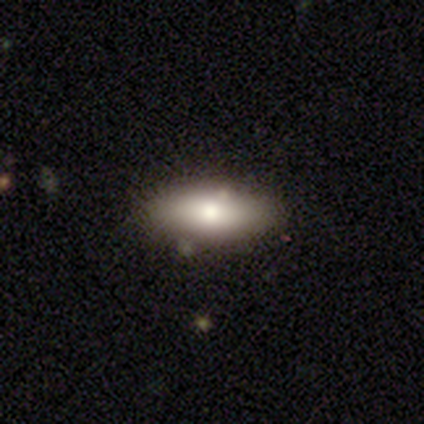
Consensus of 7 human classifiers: Morphology: type=smooth (86%); roundness=in between (67%); merging=none (57%).